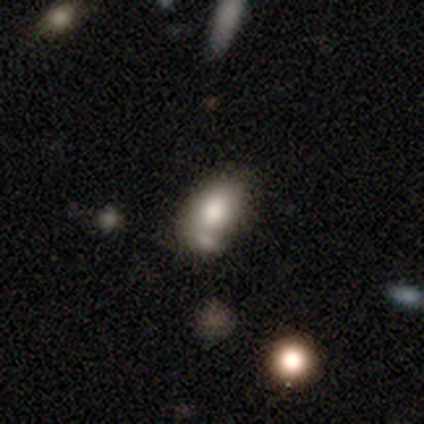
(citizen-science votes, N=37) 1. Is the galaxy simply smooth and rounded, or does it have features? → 73% smooth, 16% star or artifact, 11% featured or disk.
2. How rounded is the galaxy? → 81% in between, 19% round, 0% cigar-shaped.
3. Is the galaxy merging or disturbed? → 71% none, 16% merger, 13% minor disturbance, 0% major disturbance.